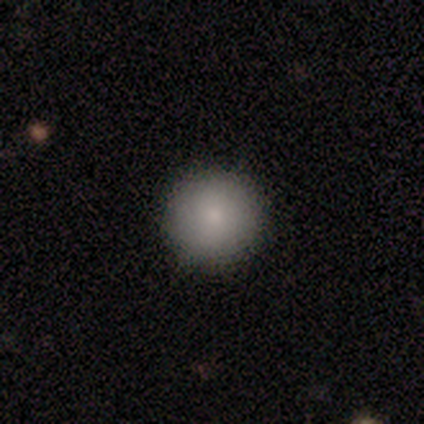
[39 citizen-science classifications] Morphology: type=smooth (92%); roundness=round (97%); merging=none (97%).